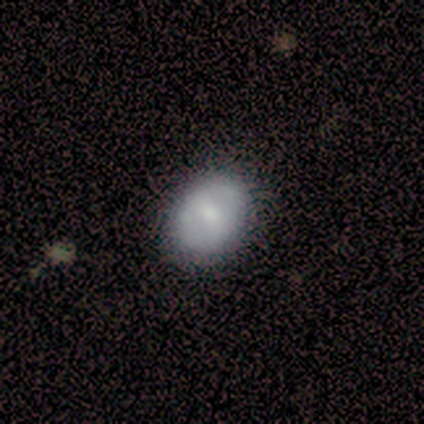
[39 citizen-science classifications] Overall: smooth (82%). How rounded: in between (59%; round 41%). Merging: none (76%).